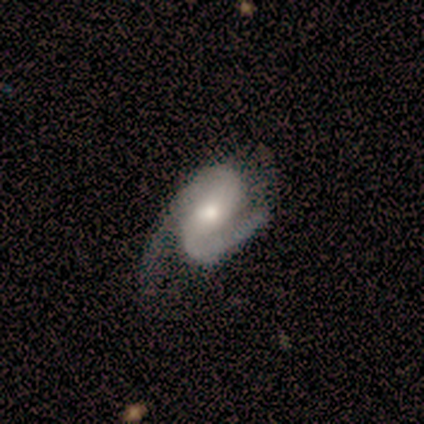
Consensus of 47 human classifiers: A featured or disk galaxy (94%) with no bar (40%), 2 (100%) medium (49%) spiral arms (93%) and a moderate central bulge (67%).

Vote fractions:
- Smooth or featured? featured or disk: 94% / smooth: 4% / star or artifact: 2%
- Edge-on disk? no: 95% / yes: 5%
- Bar? no: 40% / strong: 36% / weak: 24%
- Spiral arms? yes: 93% / no: 7%
- Spiral winding? medium: 49% / tight: 26% / loose: 26%
- Spiral arm count? 2: 100% / 1: 0% / 3: 0% / 4: 0% / more than 4: 0% / can't tell: 0%
- Bulge size? moderate: 67% / large: 17% / small: 12% / none: 5% / dominant: 0%
- Merging? none: 43% / major disturbance: 30% / minor disturbance: 24% / merger: 2%